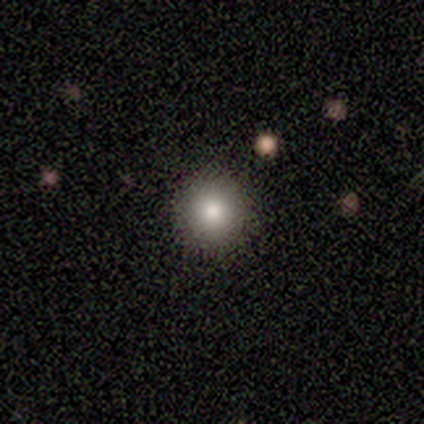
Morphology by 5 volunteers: Smooth or featured: smooth — 60% (featured or disk — 20%)
How rounded: round — 100%
Merging: none — 75% (minor disturbance — 25%)